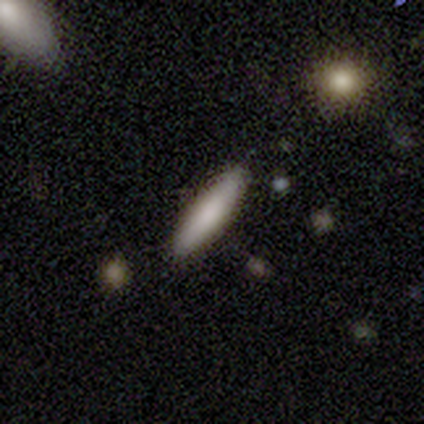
Smooth or featured? 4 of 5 (80%) said smooth. How rounded? 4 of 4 (100%) said cigar-shaped. Merging? 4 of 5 (80%) said none.